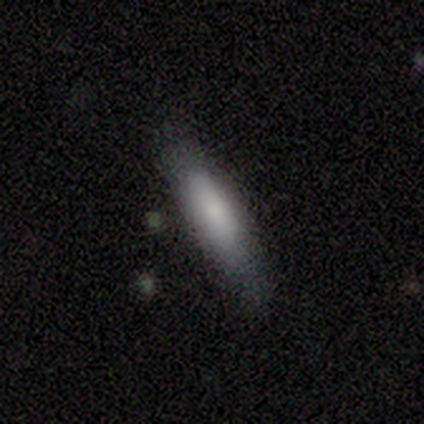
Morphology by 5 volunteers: Smooth or featured?
  - smooth: 100% *
  - featured or disk: 0%
  - star or artifact: 0%
How rounded?
  - in between: 60% *
  - cigar-shaped: 40%
  - round: 0%
Merging?
  - none: 100% *
  - minor disturbance: 0%
  - major disturbance: 0%
  - merger: 0%